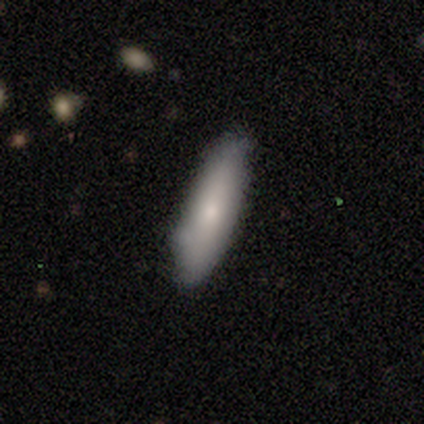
This appears to be a smooth galaxy with no disk features (80%) that is in between round and cigar-shaped (50%). Merging: none (60%).